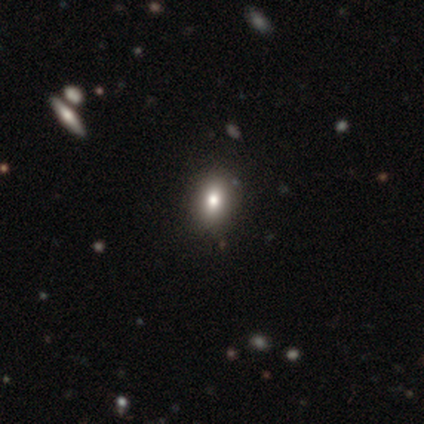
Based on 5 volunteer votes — Morphology: type=smooth (60%); roundness=in between (100%); merging=none (100%).